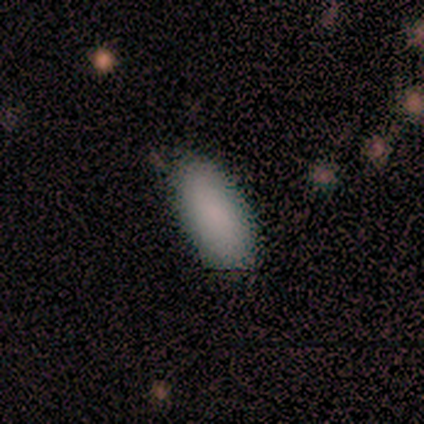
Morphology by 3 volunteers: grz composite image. It shows a smooth galaxy with no disk features (100%) that is in between round and cigar-shaped (100%). Merging: none (100%).